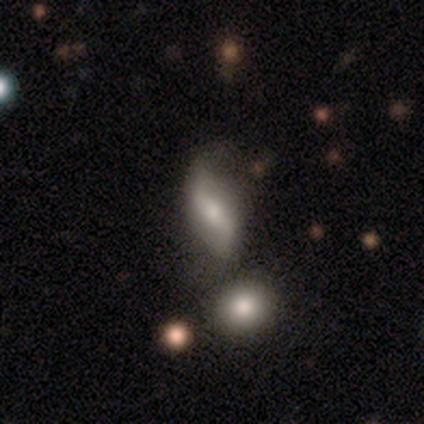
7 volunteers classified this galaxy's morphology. Smooth or featured? 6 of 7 (86%) said featured or disk. Edge-on disk? 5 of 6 (83%) said no. Bar? 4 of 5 (80%) said weak. Spiral arms? 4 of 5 (80%) said yes. Spiral winding? 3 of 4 (75%) said loose. Spiral arm count? 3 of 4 (75%) said 2. Bulge size? 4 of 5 (80%) said moderate. Merging? 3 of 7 (43%) said none.